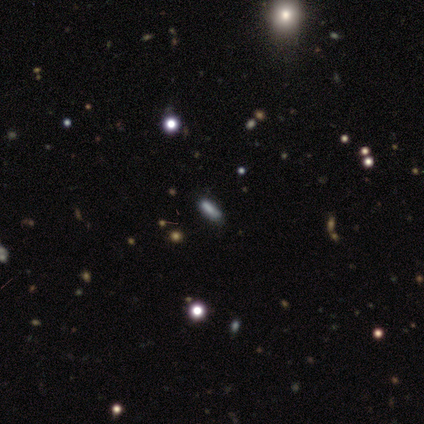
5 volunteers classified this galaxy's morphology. Smooth or featured?
  - smooth: 40% * (tied)
  - star or artifact: 40% * (tied)
  - featured or disk: 20%
How rounded?
  - cigar-shaped: 100% *
  - round: 0%
  - in between: 0%
Merging?
  - none: 67% *
  - minor disturbance: 33%
  - major disturbance: 0%
  - merger: 0%